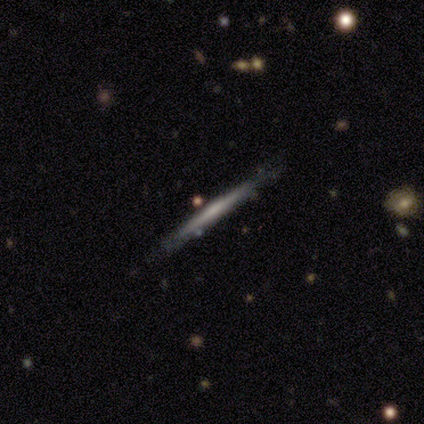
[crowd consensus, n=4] Smooth or featured? 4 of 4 (100%) said featured or disk. Edge-on disk? 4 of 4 (100%) said yes. Edge-on bulge? 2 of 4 (50%, tied with none) said boxy. Merging? 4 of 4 (100%) said none.